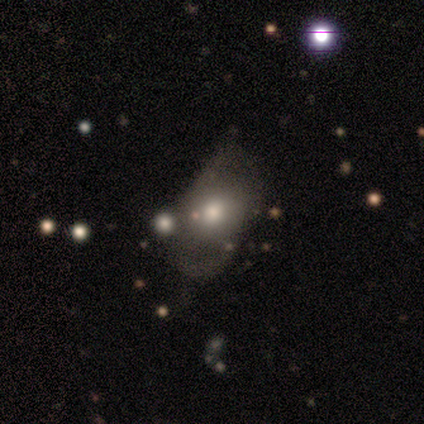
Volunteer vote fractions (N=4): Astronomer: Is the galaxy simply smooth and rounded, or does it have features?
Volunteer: smooth — 50%, tied with featured or disk at 50%.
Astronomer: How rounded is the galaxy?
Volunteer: round — 50%, tied with in between at 50%.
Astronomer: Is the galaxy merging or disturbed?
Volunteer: minor disturbance — 50%.